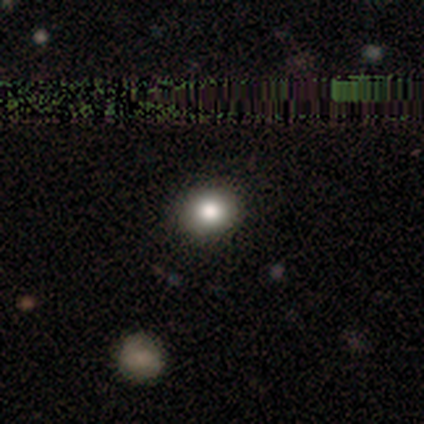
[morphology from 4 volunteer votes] smooth_or_featured: smooth (p=0.75) [alt: featured or disk p=0.25]
how_rounded: round (p=0.67) [alt: in between p=0.33]
merging: none (p=0.75) [alt: major disturbance p=0.25]